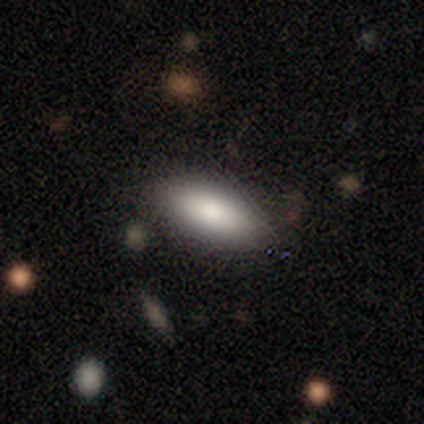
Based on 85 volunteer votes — This is clearly a smooth galaxy (81%). How rounded: clearly in between (87%). Merging: likely none (78%).